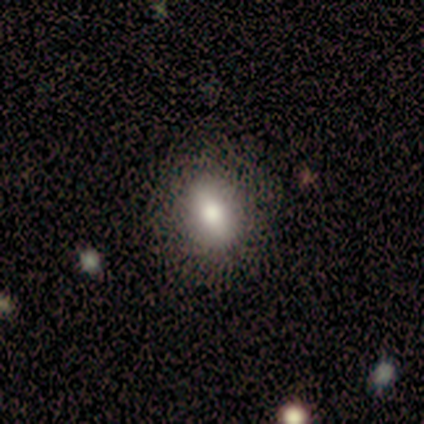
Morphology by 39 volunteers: smooth_or_featured: smooth (p=0.85) [alt: featured or disk p=0.08]
how_rounded: in between (p=0.61) [alt: round p=0.30]
merging: none (p=0.86) [alt: minor disturbance p=0.14]